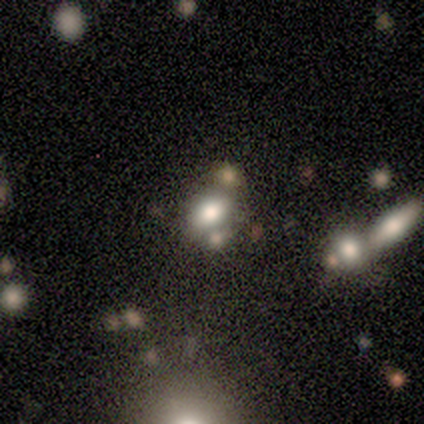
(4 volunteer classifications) smooth 75%, star or artifact 25%, featured or disk 0%. Down the decision tree: how rounded — in between (100%); merging — none (100%).